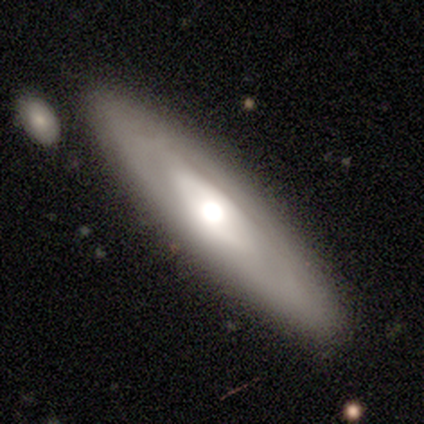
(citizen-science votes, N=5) A featured or disk galaxy (60%) with a weak bar (100%), no spiral arms (100%) and a dominant central bulge (50%, tied with large).

Vote fractions:
- Smooth or featured? featured or disk: 60% / smooth: 40% / star or artifact: 0%
- Edge-on disk? no: 67% / yes: 33%
- Bar? weak: 100% / strong: 0% / no: 0%
- Spiral arms? no: 100% / yes: 0%
- Bulge size? dominant: 50% (tied) / large: 50% (tied) / moderate: 0% / small: 0% / none: 0%
- Merging? none: 80% / minor disturbance: 20% / major disturbance: 0% / merger: 0%